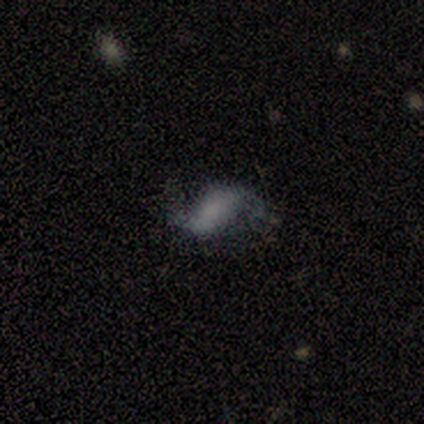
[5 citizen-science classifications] This appears to be a featured or disk galaxy (100%) with a weak bar (60%), 2 (100%) medium (50%, tied with loose) spiral arms (80%) and no central bulge (80%). Merging: none (60%).